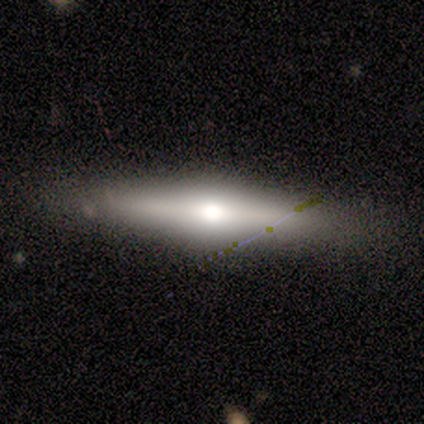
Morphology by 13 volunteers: Smooth or featured: featured or disk — 77% (smooth — 23%)
Edge-on disk: yes — 90% (no — 10%)
Edge-on bulge: rounded — 100%
Merging: none — 77% (minor disturbance — 15%)